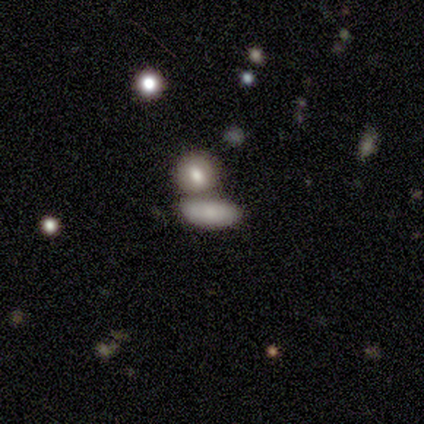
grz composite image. It shows a smooth galaxy with no disk features (80%) that is in between round and cigar-shaped (75%). Merging: none (80%).